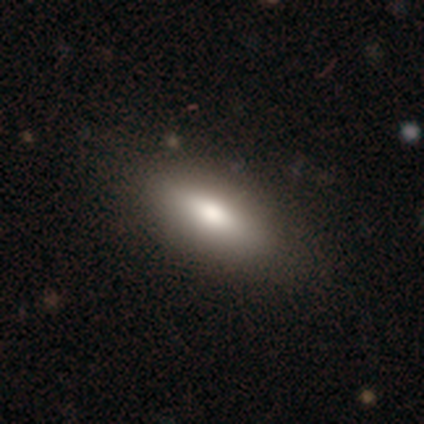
A smooth galaxy with no disk features (62%) that is in between round and cigar-shaped (80%). Merging: none (100%).